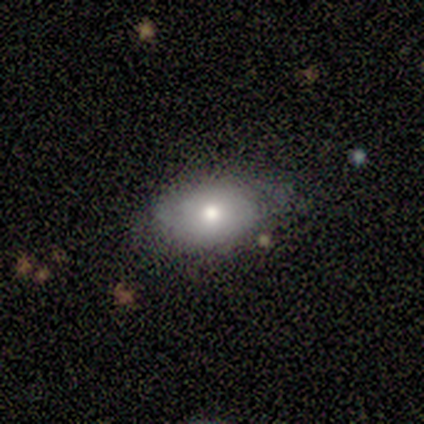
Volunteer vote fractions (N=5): This appears to be a featured or disk galaxy (60%) with no bar (100%), no spiral arms (100%) and a moderate central bulge (100%). Merging: none (60%).